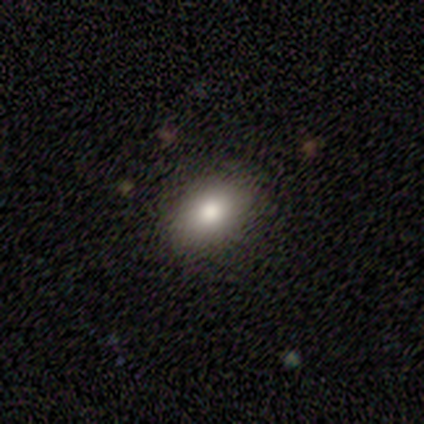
A smooth galaxy with no disk features (80%) that is in between round and cigar-shaped (100%).

Vote fractions:
- Smooth or featured? smooth: 80% / star or artifact: 20% / featured or disk: 0%
- How rounded? in between: 100% / round: 0% / cigar-shaped: 0%
- Merging? none: 75% / minor disturbance: 25% / major disturbance: 0% / merger: 0%